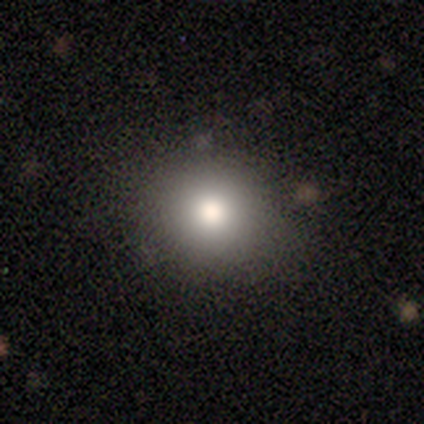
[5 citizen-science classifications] Smooth or featured: smooth — 80% (featured or disk — 20%)
How rounded: round — 75% (in between — 25%)
Merging: none — 80% (merger — 20%)